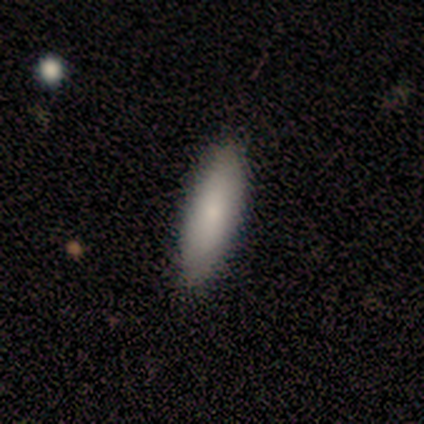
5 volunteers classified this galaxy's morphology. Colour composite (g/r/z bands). It shows a smooth galaxy with no disk features (60%) that is in between round and cigar-shaped (67%). Merging: none (60%).